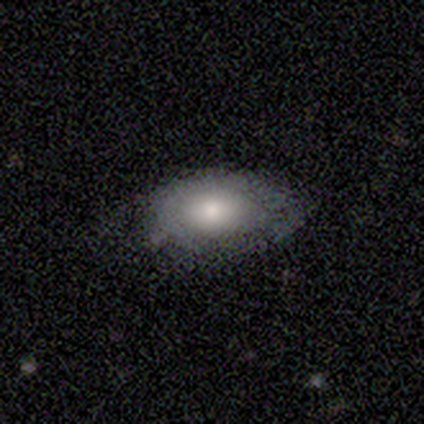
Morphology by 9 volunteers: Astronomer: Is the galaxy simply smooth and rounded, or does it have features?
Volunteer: featured or disk — 56% (runner-up: smooth, 33%).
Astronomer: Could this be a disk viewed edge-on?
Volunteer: no — 80%.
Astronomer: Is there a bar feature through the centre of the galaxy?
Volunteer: no — 100%.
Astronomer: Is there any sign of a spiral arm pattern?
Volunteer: no — 100%.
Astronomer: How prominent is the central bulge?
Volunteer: moderate — 50%.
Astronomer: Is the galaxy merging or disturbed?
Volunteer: none — 75%.